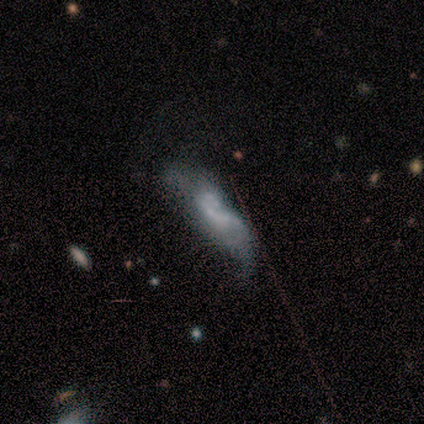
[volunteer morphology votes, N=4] Overall: featured or disk (50%; smooth 25%). Edge-on disk: no (100%). Bar: weak (50%, tied with no). Spiral arms: no (100%). Bulge size: small (50%, tied with none). Merging: minor disturbance (100%).